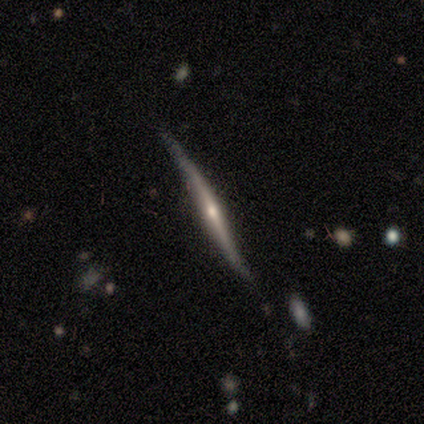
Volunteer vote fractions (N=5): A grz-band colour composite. It shows a featured or disk galaxy (80%) viewed edge-on (100%) with a rounded central bulge (75%). Merging: none (100%).